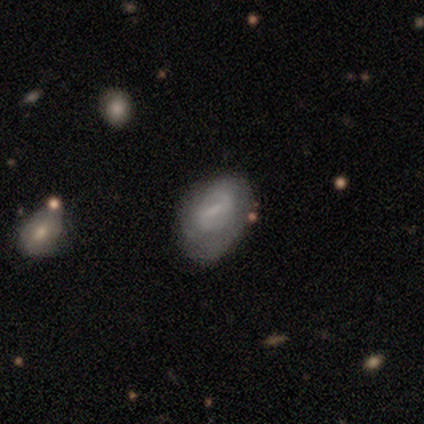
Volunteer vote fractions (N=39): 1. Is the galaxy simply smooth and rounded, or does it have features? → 59% smooth, 38% featured or disk, 3% star or artifact.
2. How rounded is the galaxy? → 83% in between, 17% round, 0% cigar-shaped.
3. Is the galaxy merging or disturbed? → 63% none, 29% minor disturbance, 8% major disturbance, 0% merger.